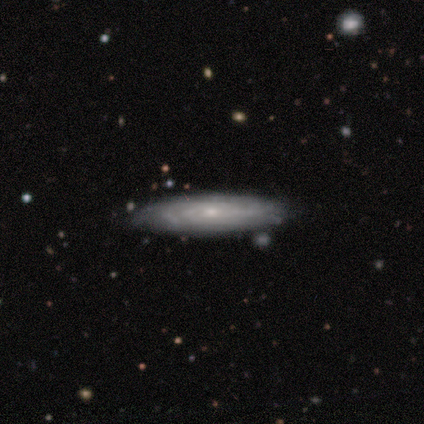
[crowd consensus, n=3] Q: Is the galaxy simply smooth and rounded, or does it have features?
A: featured or disk — 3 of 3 (100%).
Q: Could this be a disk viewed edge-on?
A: no — 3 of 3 (100%).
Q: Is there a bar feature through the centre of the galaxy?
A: no — 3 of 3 (100%).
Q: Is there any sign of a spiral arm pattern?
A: no — 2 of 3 (67%).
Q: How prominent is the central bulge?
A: small — 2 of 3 (67%).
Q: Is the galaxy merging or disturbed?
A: none — 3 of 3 (100%).